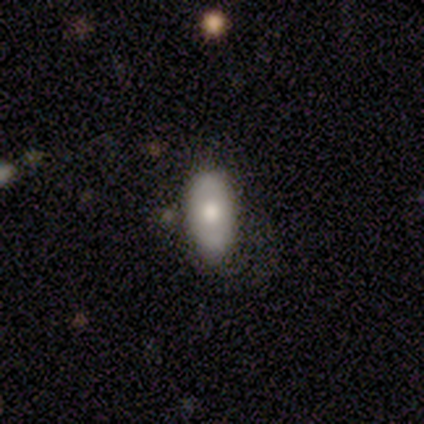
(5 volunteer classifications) Smooth or featured? smooth (80%)
How rounded? in between (100%)
Merging? none (60%)